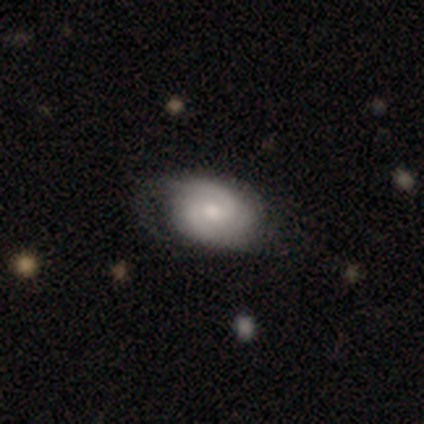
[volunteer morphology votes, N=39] A featured or disk galaxy (59%) with a weak bar (50%), 2 (76%) tight (62%) spiral arms (95%) and a moderate central bulge (50%). Merging: none (62%).